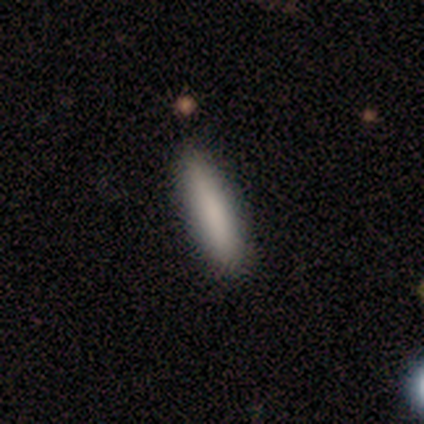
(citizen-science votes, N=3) Smooth or featured? 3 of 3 (100%) said smooth. How rounded? 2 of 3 (67%) said in between. Merging? 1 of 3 (33%, tied with minor disturbance and merger) said none.